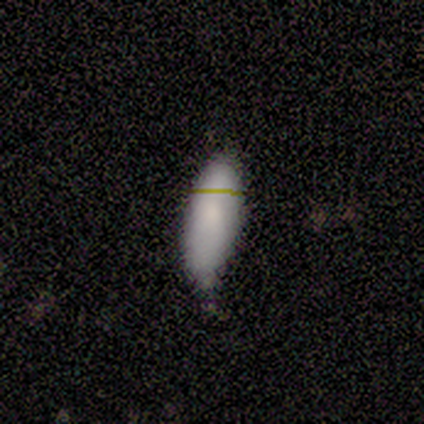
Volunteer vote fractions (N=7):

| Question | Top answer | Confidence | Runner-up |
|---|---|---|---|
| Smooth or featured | smooth | 100% | — |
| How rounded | in between | 57% | cigar-shaped (43%) |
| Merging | none | 71% | minor disturbance (29%) |